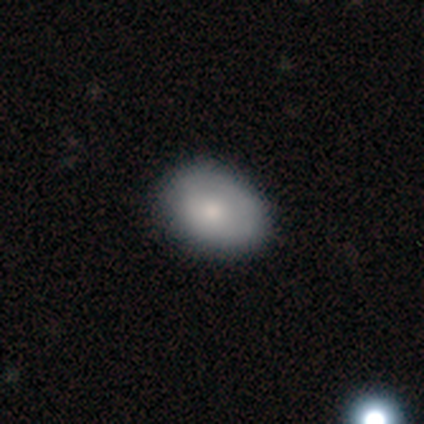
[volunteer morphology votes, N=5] This appears to be a smooth galaxy with no disk features (40%, tied with star or artifact) that is round (100%). Merging: none (100%).